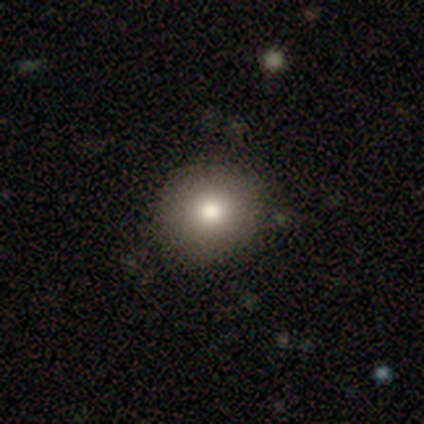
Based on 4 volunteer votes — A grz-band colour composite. It shows a smooth galaxy with no disk features (75%) that is round (67%). Merging: none (75%).